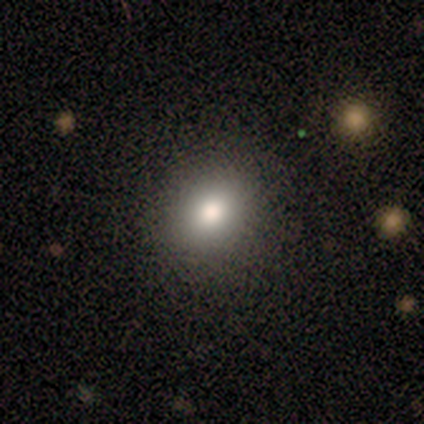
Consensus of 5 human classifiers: Volunteers were most divided on "how rounded" (2-way tie): round: 50%, in between: 50%, cigar-shaped: 0%. More confident: smooth or featured — smooth (80%); merging — none (75%).